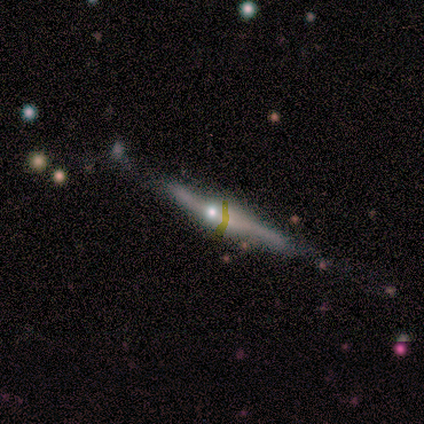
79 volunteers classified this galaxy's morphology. Smooth or featured?
  - featured or disk: 86% *
  - smooth: 8%
  - star or artifact: 6%
Edge-on disk?
  - yes: 94% *
  - no: 6%
Edge-on bulge?
  - rounded: 80% *
  - boxy: 16%
  - none: 5%
Merging?
  - none: 54% *
  - minor disturbance: 32%
  - major disturbance: 9%
  - merger: 4%